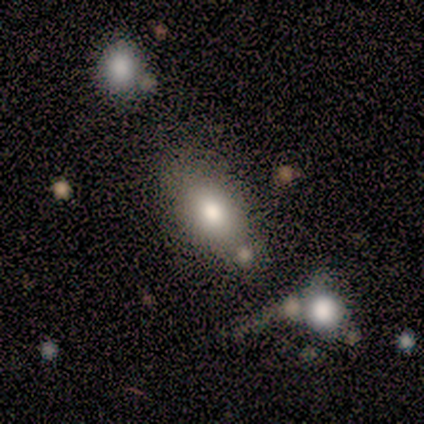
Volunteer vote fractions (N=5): Smooth or featured?
  - smooth: 60% *
  - featured or disk: 40%
  - star or artifact: 0%
How rounded?
  - in between: 100% *
  - round: 0%
  - cigar-shaped: 0%
Merging?
  - none: 40% * (tied)
  - minor disturbance: 40% * (tied)
  - merger: 20%
  - major disturbance: 0%